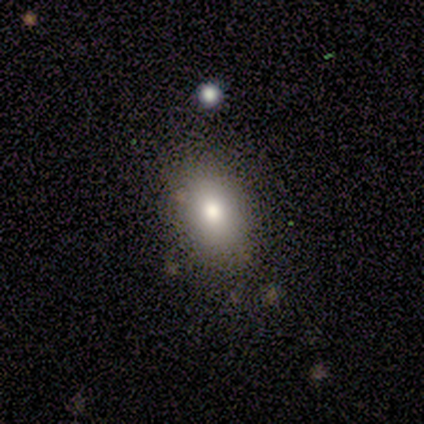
Morphology: type=smooth (60%); roundness=in between (100%); merging=none (50%, tied with minor disturbance).